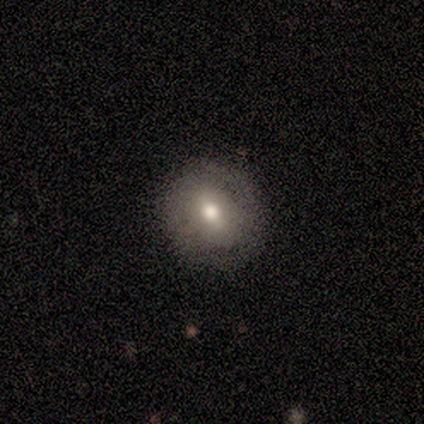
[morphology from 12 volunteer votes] type=smooth (50%, tied with featured or disk); roundness=round (83%); merging=none (83%).